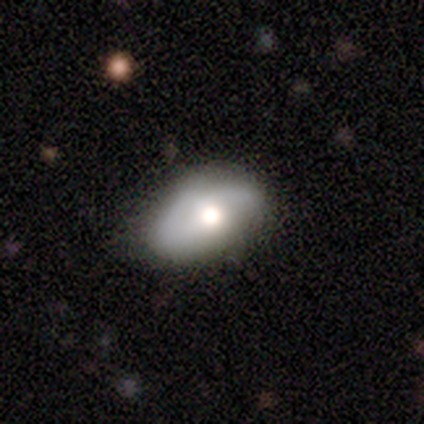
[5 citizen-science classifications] featured or disk 80%, smooth 20%, star or artifact 0%. Down the decision tree: edge-on disk — no (100%); bar — weak (50%, tied with no); spiral arms — yes (75%); spiral arm count — 2 (100%); spiral winding — tight (67%); bulge size — moderate (75%); merging — minor disturbance (80%).